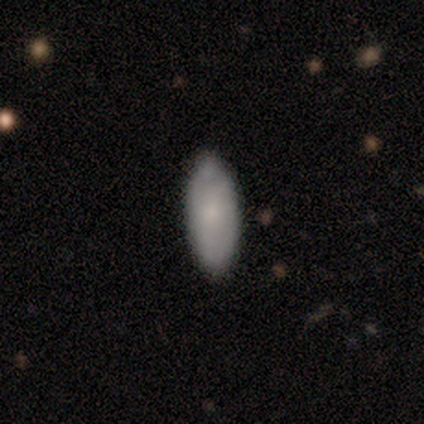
Smooth or featured? smooth (80%)
How rounded? in between (100%)
Merging? none (100%)